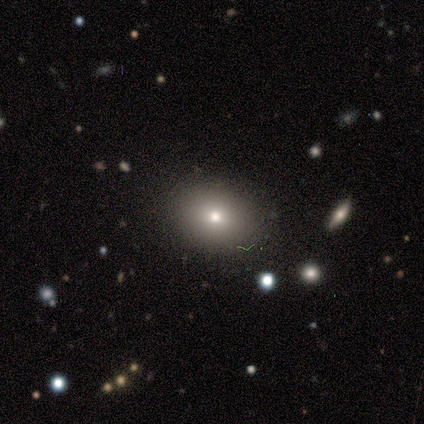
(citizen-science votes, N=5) smooth-or-featured: smooth: 80% | featured or disk: 20% | star or artifact: 0%
  how-rounded: round: 50% (tied) | in between: 50% (tied) | cigar-shaped: 0%
  merging: none: 100% | minor disturbance: 0% | major disturbance: 0% | merger: 0%